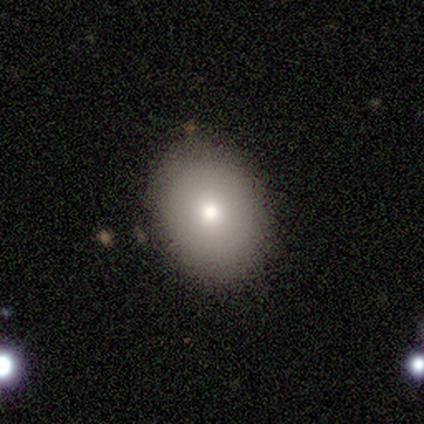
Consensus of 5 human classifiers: Q: Smooth or featured?
A: smooth (80%); runner-up: featured or disk (20%)
Q: How rounded?
A: in between (75%); runner-up: round (25%)
Q: Merging?
A: none (100%)